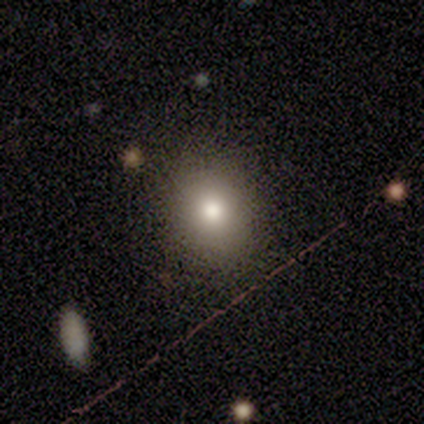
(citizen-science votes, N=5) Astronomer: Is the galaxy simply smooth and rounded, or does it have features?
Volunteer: smooth — 80%.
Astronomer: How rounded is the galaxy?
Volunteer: round — 75%.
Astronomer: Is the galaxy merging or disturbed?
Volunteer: none — 100%.